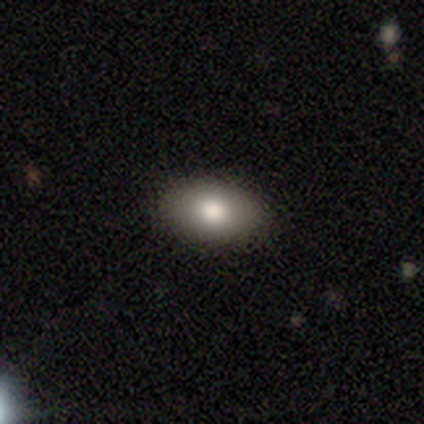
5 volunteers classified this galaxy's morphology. This appears to be a smooth galaxy with no disk features (100%) that is in between round and cigar-shaped (100%). Merging: none (80%).